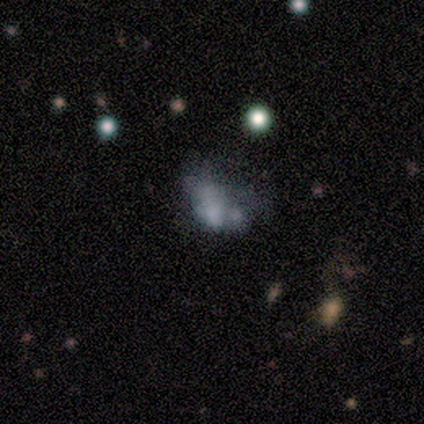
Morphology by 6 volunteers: smooth-or-featured: featured or disk: 83% | star or artifact: 17% | smooth: 0%
  disk-edge-on: no: 100% | yes: 0%
    bar: no: 100% | strong: 0% | weak: 0%
    has-spiral-arms: no: 100% | yes: 0%
    bulge-size: small: 40% (tied) | none: 40% (tied) | moderate: 20% | dominant: 0% | large: 0%
  merging: none: 40% | minor disturbance: 20% | major disturbance: 20% | merger: 20%